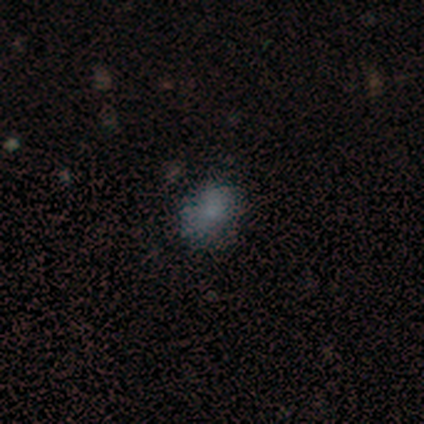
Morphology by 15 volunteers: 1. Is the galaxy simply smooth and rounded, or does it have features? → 73% smooth, 13% featured or disk, 13% star or artifact.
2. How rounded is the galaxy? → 64% in between, 36% round, 0% cigar-shaped.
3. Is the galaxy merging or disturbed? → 100% none, 0% minor disturbance, 0% major disturbance, 0% merger.